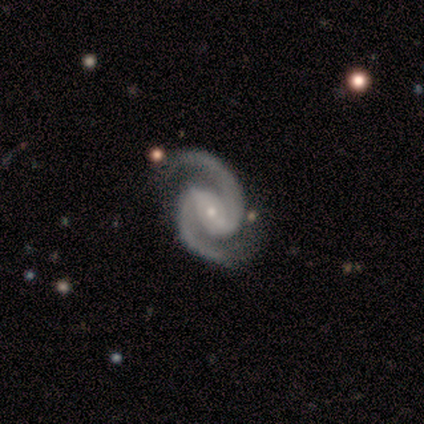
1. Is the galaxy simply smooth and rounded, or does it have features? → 100% featured or disk, 0% smooth, 0% star or artifact.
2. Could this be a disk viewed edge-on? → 100% no, 0% yes.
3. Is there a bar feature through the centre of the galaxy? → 50% weak, 25% strong, 25% no.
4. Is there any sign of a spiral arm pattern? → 100% yes, 0% no.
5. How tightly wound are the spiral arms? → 75% medium, 25% tight, 0% loose.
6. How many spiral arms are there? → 100% 2, 0% 1, 0% 3, 0% 4, 0% more than 4, 0% can't tell.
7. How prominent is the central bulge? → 75% small, 25% moderate, 0% dominant, 0% large, 0% none.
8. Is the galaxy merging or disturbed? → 75% none, 25% minor disturbance, 0% major disturbance, 0% merger.